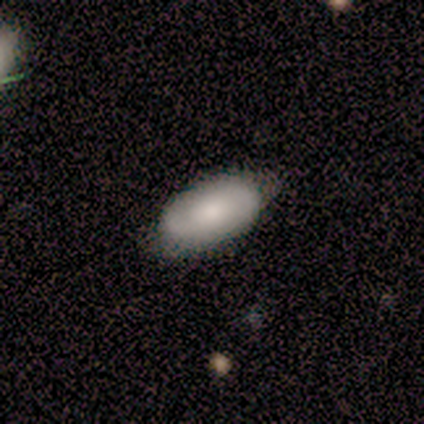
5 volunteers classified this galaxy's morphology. This is marginally a smooth galaxy (40%, tied with featured or disk). How rounded: clearly in between (100%). Merging: likely none (75%).